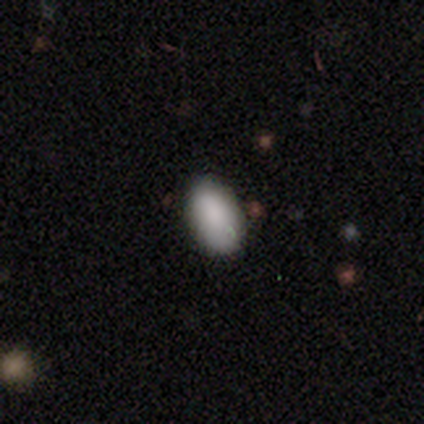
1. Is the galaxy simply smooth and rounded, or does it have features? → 100% smooth, 0% featured or disk, 0% star or artifact.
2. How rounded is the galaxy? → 100% in between, 0% round, 0% cigar-shaped.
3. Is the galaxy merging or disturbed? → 100% none, 0% minor disturbance, 0% major disturbance, 0% merger.